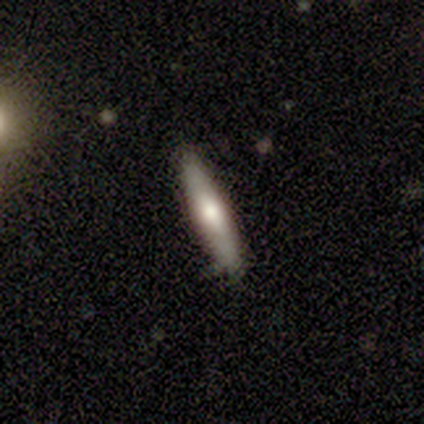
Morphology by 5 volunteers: featured or disk 60%, smooth 40%, star or artifact 0%. Down the decision tree: edge-on disk — yes (100%); edge-on bulge — rounded (67%); merging — none (60%).